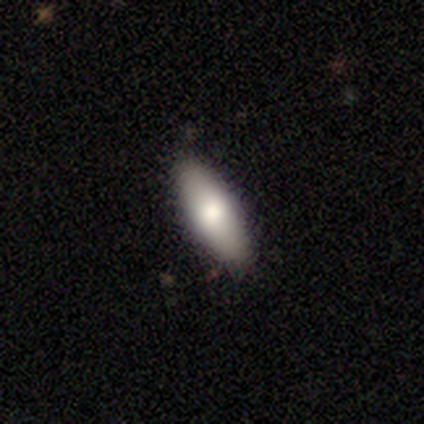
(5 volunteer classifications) smooth 80%, featured or disk 20%, star or artifact 0%. Down the decision tree: how rounded — in between (100%); merging — none (80%).